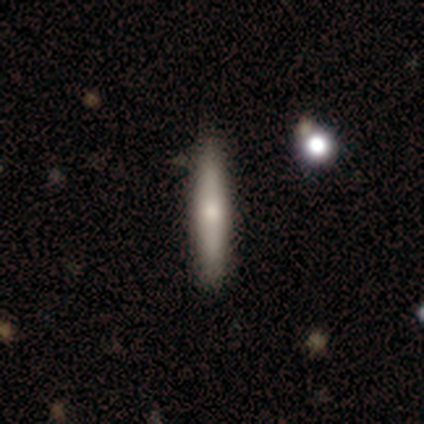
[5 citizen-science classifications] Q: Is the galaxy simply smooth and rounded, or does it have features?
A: smooth — 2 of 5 (40%, tied with featured or disk).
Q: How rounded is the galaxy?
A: cigar-shaped — 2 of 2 (100%).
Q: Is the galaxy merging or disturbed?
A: none — 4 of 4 (100%).